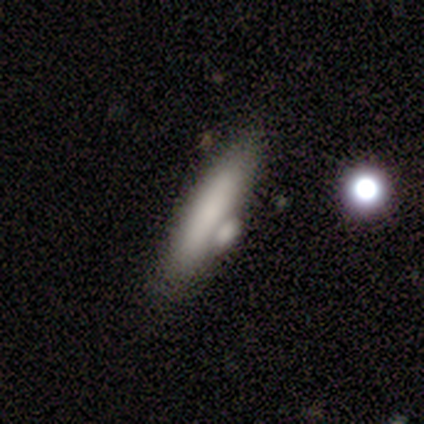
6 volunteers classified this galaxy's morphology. Smooth or featured?
  - smooth: 83% *
  - featured or disk: 17%
  - star or artifact: 0%
How rounded?
  - cigar-shaped: 80% *
  - in between: 20%
  - round: 0%
Merging?
  - merger: 67% *
  - none: 33%
  - minor disturbance: 0%
  - major disturbance: 0%